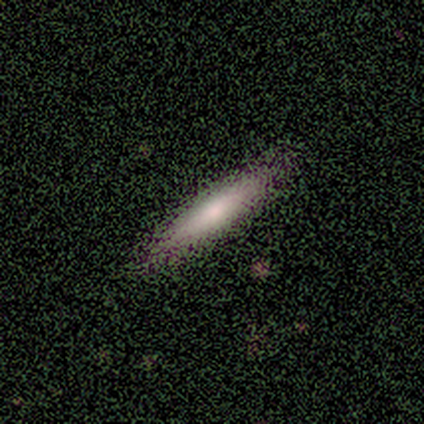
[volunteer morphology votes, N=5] Overall: smooth (60%; featured or disk 20%). How rounded: cigar-shaped (100%). Merging: none (100%).